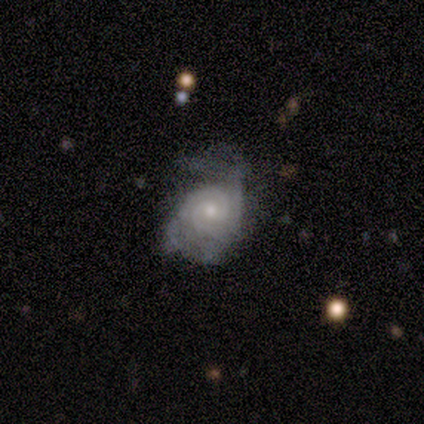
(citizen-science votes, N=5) Smooth or featured?
  - featured or disk: 100% *
  - smooth: 0%
  - star or artifact: 0%
Edge-on disk?
  - no: 100% *
  - yes: 0%
Bar?
  - no: 60% *
  - weak: 40%
  - strong: 0%
Spiral arms?
  - yes: 100% *
  - no: 0%
Spiral winding?
  - tight: 80% *
  - medium: 20%
  - loose: 0%
Spiral arm count?
  - 2: 60% *
  - can't tell: 40%
  - 1: 0%
  - 3: 0%
  - 4: 0%
  - more than 4: 0%
Bulge size?
  - small: 80% *
  - moderate: 20%
  - dominant: 0%
  - large: 0%
  - none: 0%
Merging?
  - minor disturbance: 60% *
  - none: 20%
  - major disturbance: 20%
  - merger: 0%